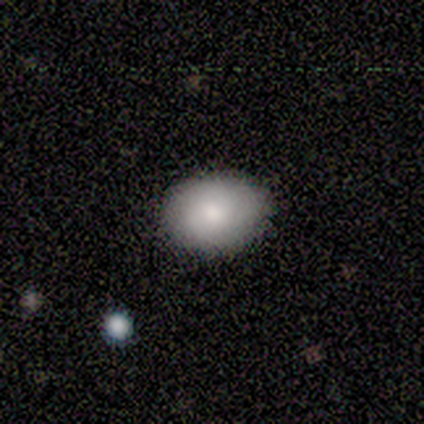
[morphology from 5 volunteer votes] This is clearly a smooth galaxy (100%). How rounded: likely round (60%). Merging: clearly none (80%).